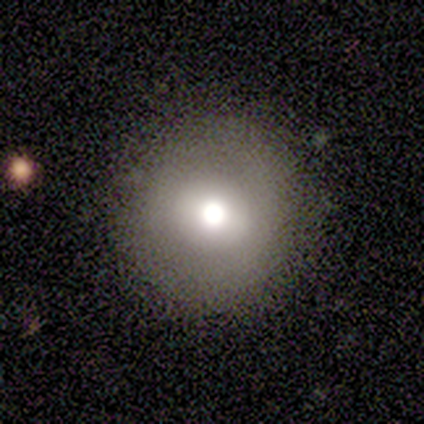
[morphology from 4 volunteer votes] A smooth galaxy with no disk features (75%) that is round (100%). Merging: none (75%).